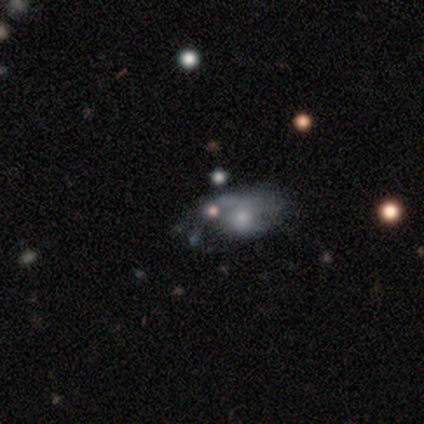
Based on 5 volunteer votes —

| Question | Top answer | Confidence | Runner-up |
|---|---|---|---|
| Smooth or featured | featured or disk | 60% | smooth (20%) |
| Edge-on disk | no | 100% | — |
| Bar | no | 100% | — |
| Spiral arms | yes | 67% | no (33%) |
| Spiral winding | tight | 50% | tied: medium (50%) |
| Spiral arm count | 1 | 50% | tied: can't tell (50%) |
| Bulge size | moderate | 33% | tied: small (33%), none (33%) |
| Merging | none | 50% | minor disturbance (25%) |